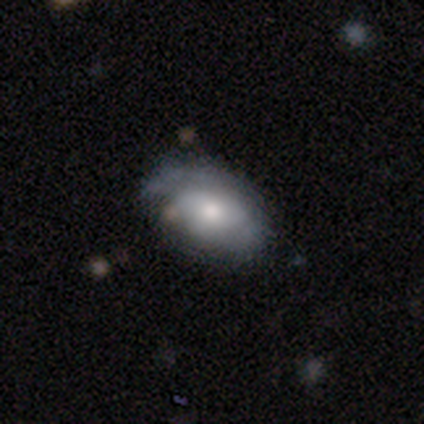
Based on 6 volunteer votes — This appears to be a smooth galaxy with no disk features (83%) that is in between round and cigar-shaped (100%). Merging: none (83%).